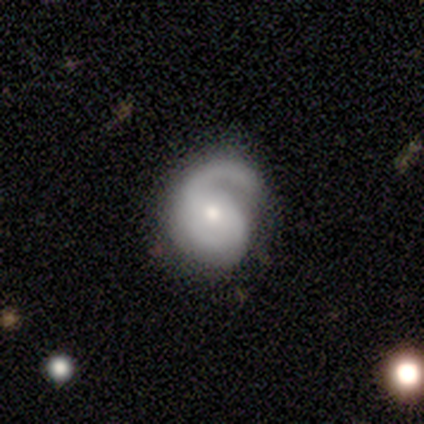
Smooth or featured: featured or disk — 85% (smooth — 13%)
Edge-on disk: no — 97% (yes — 3%)
Bar: no — 59% (weak — 25%)
Spiral arms: yes — 94% (no — 6%)
Spiral winding: medium — 53% (tight — 23%)
Spiral arm count: 2 — 50% (1 — 43%)
Bulge size: moderate — 59% (small — 41%)
Merging: none — 47% (major disturbance — 32%)